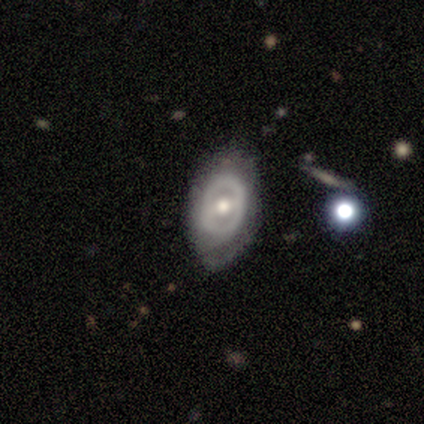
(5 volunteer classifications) This is clearly a featured or disk galaxy (80%). It is clearly not viewed edge-on (100%). Bar: possibly weak (50%, tied with no). Spiral arm pattern: clearly no (100%). Central bulge: likely moderate (75%). Merging: clearly none (80%).